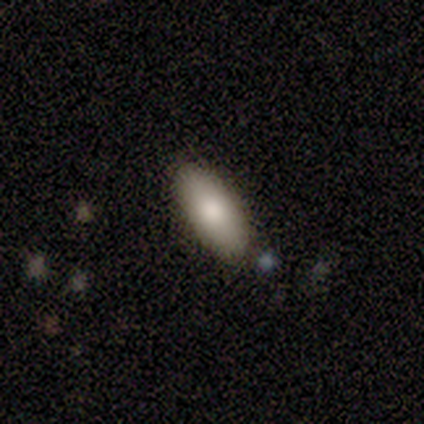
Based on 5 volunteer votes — Smooth or featured? 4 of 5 (80%) said smooth. How rounded? 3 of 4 (75%) said cigar-shaped. Merging? 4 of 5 (80%) said none.